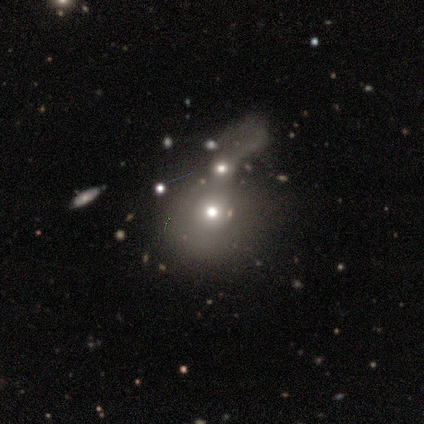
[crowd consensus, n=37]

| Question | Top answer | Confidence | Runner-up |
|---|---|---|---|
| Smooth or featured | smooth | 51% | featured or disk (35%) |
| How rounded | round | 74% | in between (26%) |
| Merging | merger | 66% | major disturbance (22%) |